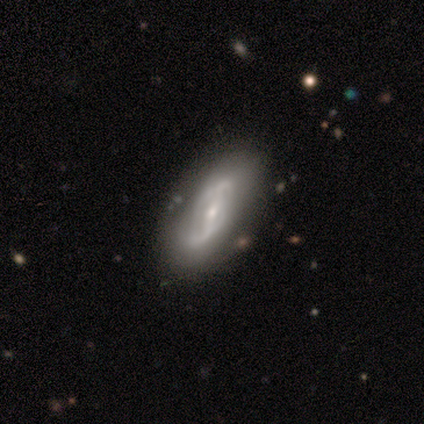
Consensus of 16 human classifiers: Smooth or featured? featured or disk (75%)
Edge-on disk? no (92%)
Bar? strong (55%)
Spiral arms? yes (91%)
Spiral winding? loose (60%)
Spiral arm count? 2 (60%)
Bulge size? moderate (55%)
Merging? none (69%)